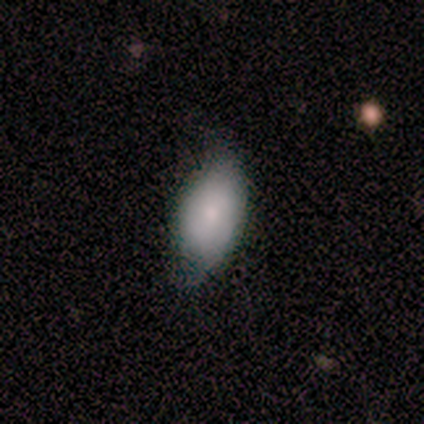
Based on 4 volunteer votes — Morphology: type=smooth (100%); roundness=in between (100%); merging=none (75%).